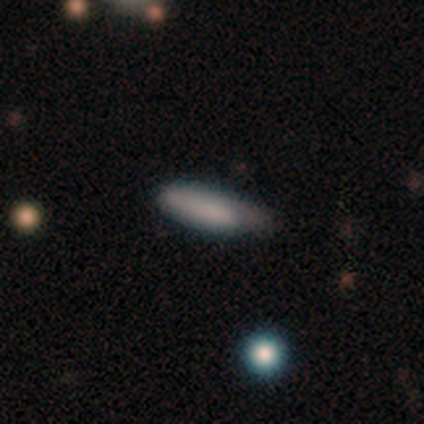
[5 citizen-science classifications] This is likely a smooth galaxy (60%). How rounded: likely cigar-shaped (67%). Merging: likely none (60%).